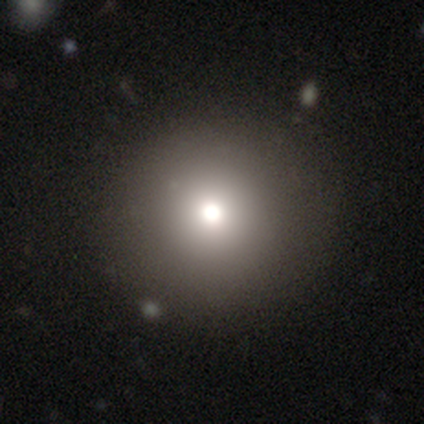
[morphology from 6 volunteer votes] Overall: smooth (50%, tied with featured or disk). How rounded: round (100%). Merging: none (100%).